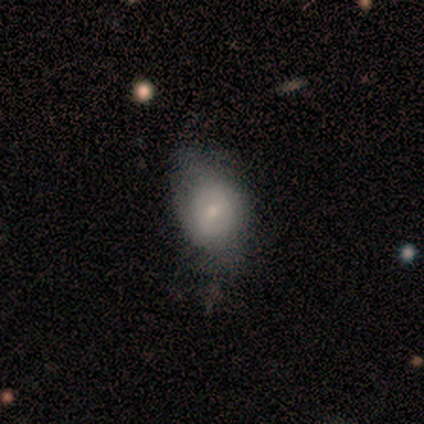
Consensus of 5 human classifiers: smooth 40% (tied), featured or disk 40% (tied), star or artifact 20%. Down the decision tree: how rounded — round (50%, tied with in between); merging — none (50%).